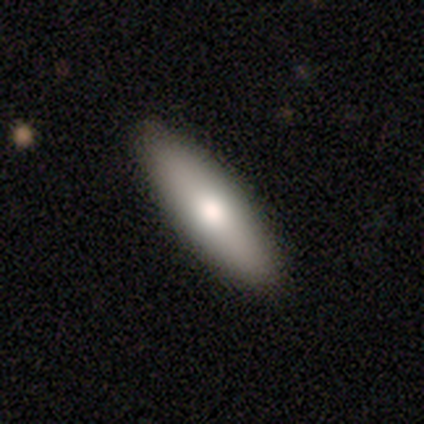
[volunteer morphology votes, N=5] Smooth or featured? smooth (80%)
How rounded? in between (50%, tied with cigar-shaped)
Merging? none (100%)